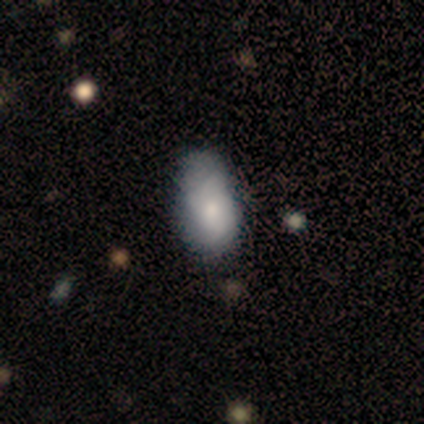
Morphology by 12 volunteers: This appears to be a smooth galaxy with no disk features (75%) that is in between round and cigar-shaped (78%). Merging: minor disturbance (50%).